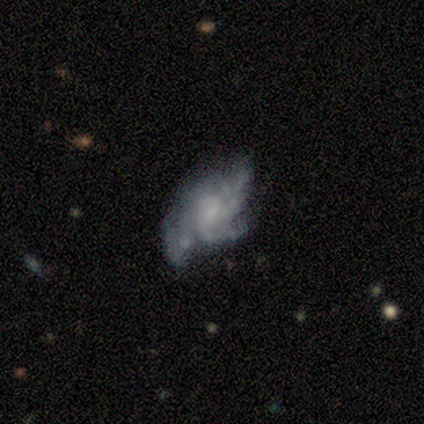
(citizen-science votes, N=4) Q: Smooth or featured?
A: featured or disk (75%); runner-up: smooth (25%)
Q: Edge-on disk?
A: no (100%)
Q: Bar?
A: no (67%); runner-up: weak (33%)
Q: Spiral arms?
A: yes (100%)
Q: Spiral winding?
A: medium (67%); runner-up: tight (33%)
Q: Spiral arm count?
A: 2 (33%); tied with: 3 (33%); can't tell (33%)
Q: Bulge size?
A: small (67%); runner-up: none (33%)
Q: Merging?
A: none (50%); tied with: major disturbance (50%)